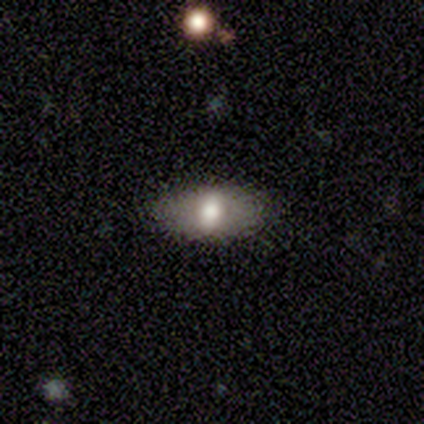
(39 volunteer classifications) This is possibly a smooth galaxy (56%). How rounded: clearly in between (91%). Merging: likely none (76%).